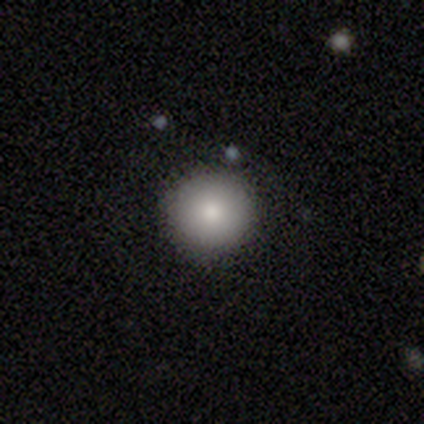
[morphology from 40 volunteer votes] Smooth or featured? 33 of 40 (82%) said smooth. How rounded? 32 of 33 (97%) said round. Merging? 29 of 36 (81%) said none.